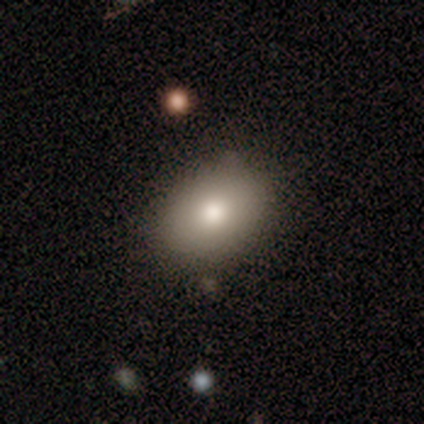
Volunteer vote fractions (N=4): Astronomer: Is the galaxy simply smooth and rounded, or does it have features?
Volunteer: smooth — 100%.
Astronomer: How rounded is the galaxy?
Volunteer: round — 50%, tied with in between at 50%.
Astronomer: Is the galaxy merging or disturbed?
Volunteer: none — 100%.